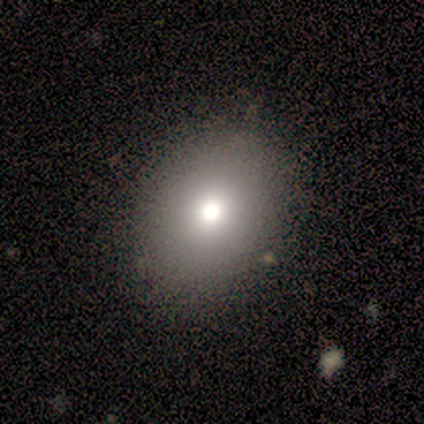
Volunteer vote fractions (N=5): Q: Smooth or featured?
A: smooth (60%); runner-up: star or artifact (40%)
Q: How rounded?
A: in between (100%)
Q: Merging?
A: none (100%)